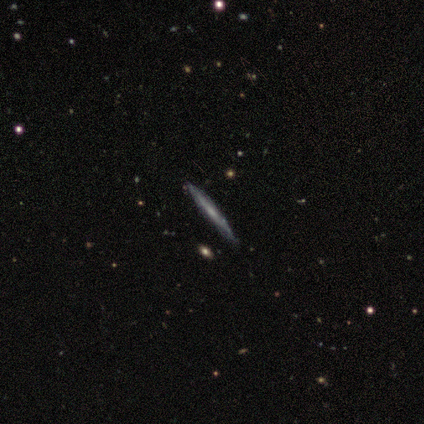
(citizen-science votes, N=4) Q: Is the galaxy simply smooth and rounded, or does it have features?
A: featured or disk — 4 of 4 (100%).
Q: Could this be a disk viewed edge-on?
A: yes — 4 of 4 (100%).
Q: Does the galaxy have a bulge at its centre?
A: none — 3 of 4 (75%).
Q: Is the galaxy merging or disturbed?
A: none — 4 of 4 (100%).